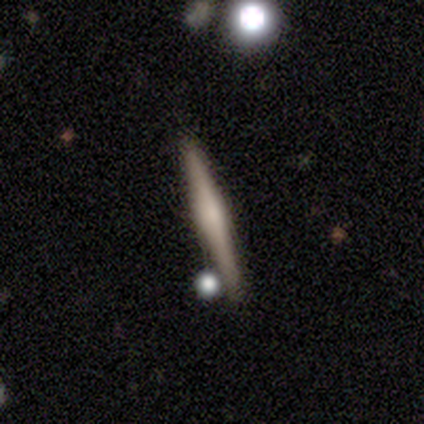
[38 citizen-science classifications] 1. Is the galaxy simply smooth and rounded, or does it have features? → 76% featured or disk, 18% smooth, 5% star or artifact.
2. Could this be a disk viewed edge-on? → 100% yes, 0% no.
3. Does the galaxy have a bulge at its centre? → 66% rounded, 21% boxy, 14% none.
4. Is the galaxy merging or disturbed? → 58% none, 6% merger, 3% minor disturbance, 0% major disturbance.